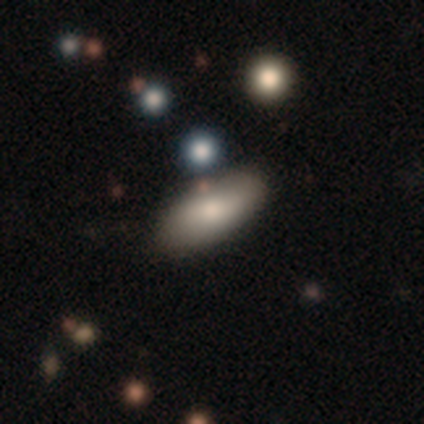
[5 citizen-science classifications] Q: Smooth or featured?
A: smooth (100%)
Q: How rounded?
A: in between (100%)
Q: Merging?
A: none (100%)